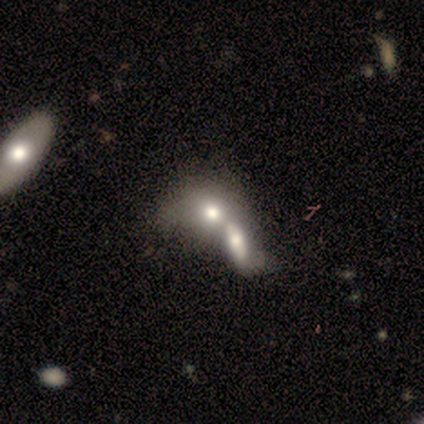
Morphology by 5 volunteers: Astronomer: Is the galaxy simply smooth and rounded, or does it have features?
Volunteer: smooth — 60%.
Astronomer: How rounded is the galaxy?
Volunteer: round — 33%, tied with in between and cigar-shaped at 33%.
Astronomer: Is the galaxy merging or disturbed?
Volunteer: merger — 75%.